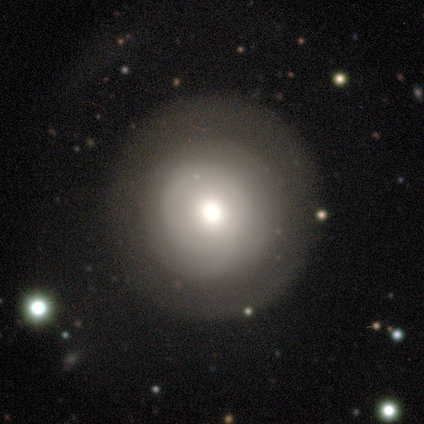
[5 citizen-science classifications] Smooth or featured: smooth — 80% (star or artifact — 20%)
How rounded: round — 100%
Merging: none — 75% (major disturbance — 25%)